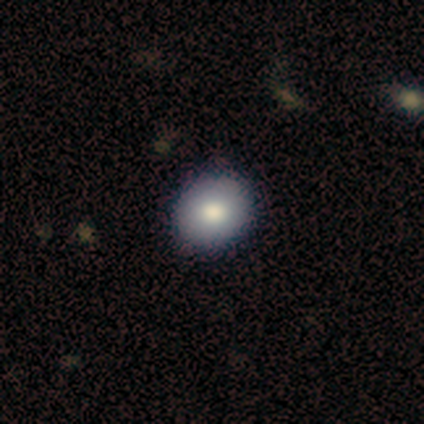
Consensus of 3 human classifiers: This is likely a smooth galaxy (67%). How rounded: possibly round (50%, tied with in between). Merging: clearly none (100%).